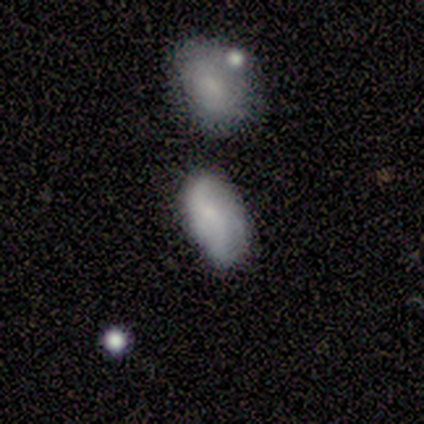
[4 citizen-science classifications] smooth_or_featured: smooth (p=0.75) [alt: featured or disk p=0.25]
how_rounded: in between (p=0.67) [alt: round p=0.33]
merging: none (p=0.75) [alt: merger p=0.25]